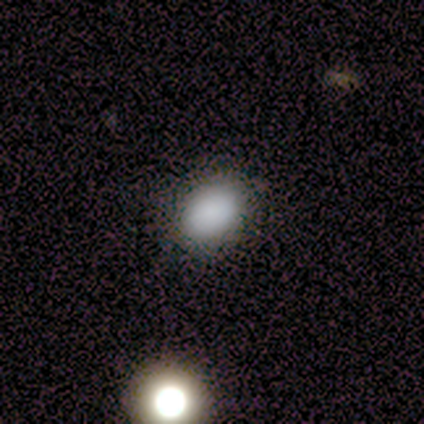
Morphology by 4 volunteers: type=smooth (100%); roundness=in between (75%); merging=none (100%).